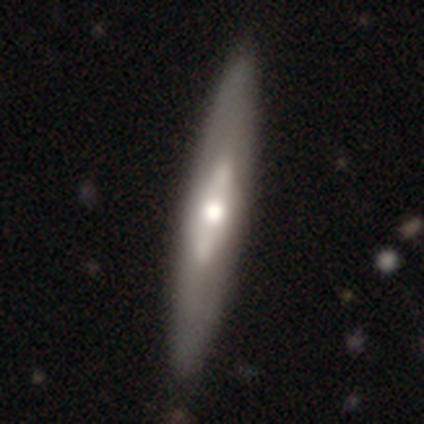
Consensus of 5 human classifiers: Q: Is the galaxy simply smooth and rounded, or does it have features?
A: featured or disk — 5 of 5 (100%).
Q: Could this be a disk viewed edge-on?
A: yes — 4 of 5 (80%).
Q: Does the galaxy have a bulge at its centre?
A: rounded — 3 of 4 (75%).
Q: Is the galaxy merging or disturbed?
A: none — 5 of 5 (100%).